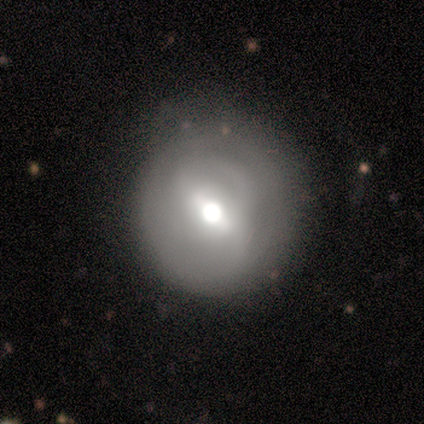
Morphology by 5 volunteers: Smooth or featured? 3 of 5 (60%) said featured or disk. Edge-on disk? 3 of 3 (100%) said no. Bar? 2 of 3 (67%) said weak. Spiral arms? 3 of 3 (100%) said yes. Spiral winding? 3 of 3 (100%) said tight. Spiral arm count? 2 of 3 (67%) said can't tell. Bulge size? 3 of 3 (100%) said moderate. Merging? 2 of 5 (40%, tied with minor disturbance) said none.